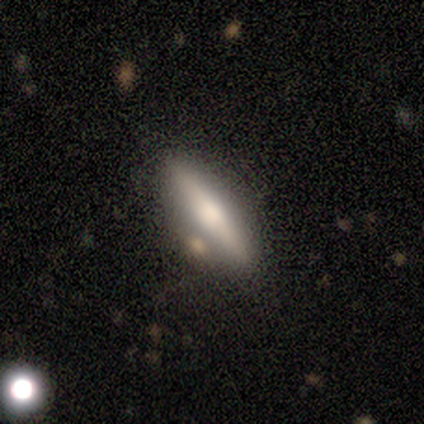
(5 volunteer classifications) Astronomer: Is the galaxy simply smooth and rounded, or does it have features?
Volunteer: featured or disk — 60% (runner-up: smooth, 40%).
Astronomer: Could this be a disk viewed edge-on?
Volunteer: yes — 67%.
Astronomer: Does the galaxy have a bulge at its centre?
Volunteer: rounded — 100%.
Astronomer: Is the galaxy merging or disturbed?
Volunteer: none — 100%.